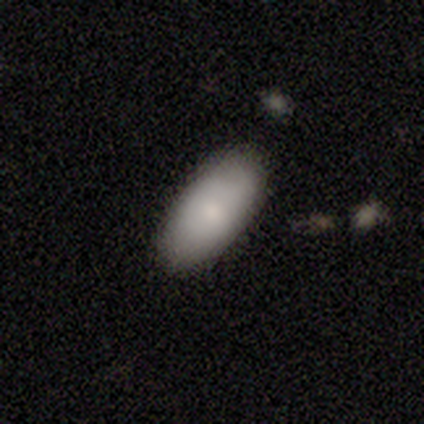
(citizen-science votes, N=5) Q: Smooth or featured?
A: smooth (100%)
Q: How rounded?
A: in between (100%)
Q: Merging?
A: none (100%)